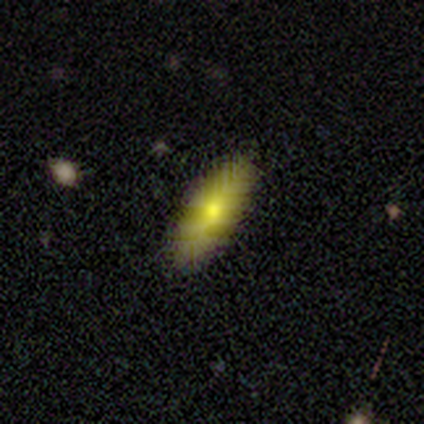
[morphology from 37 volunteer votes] This is likely a smooth galaxy (68%). How rounded: likely in between (72%). Merging: clearly none (91%).